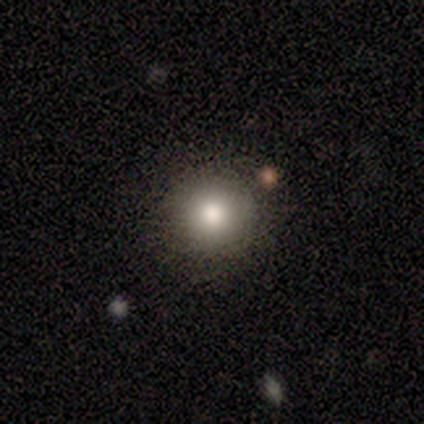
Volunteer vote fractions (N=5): Smooth or featured: smooth — 100%
How rounded: round — 100%
Merging: none — 100%